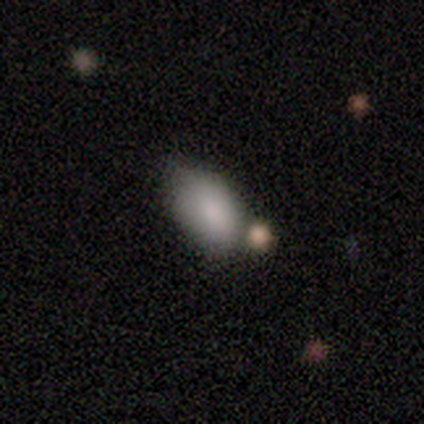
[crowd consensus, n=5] A smooth galaxy with no disk features (100%) that is in between round and cigar-shaped (100%).

Vote fractions:
- Smooth or featured? smooth: 100% / featured or disk: 0% / star or artifact: 0%
- How rounded? in between: 100% / round: 0% / cigar-shaped: 0%
- Merging? minor disturbance: 40% (tied) / merger: 40% (tied) / none: 20% / major disturbance: 0%